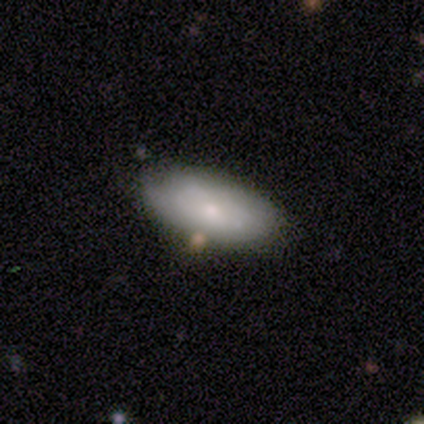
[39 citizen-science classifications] This appears to be a smooth galaxy with no disk features (74%) that is in between round and cigar-shaped (90%). Merging: none (68%).